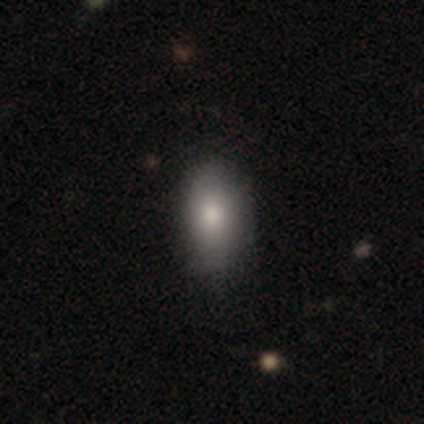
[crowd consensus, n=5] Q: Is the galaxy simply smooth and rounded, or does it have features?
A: smooth — 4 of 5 (80%).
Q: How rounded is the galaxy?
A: in between — 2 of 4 (50%).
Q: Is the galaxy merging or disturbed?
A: none — 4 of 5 (80%).